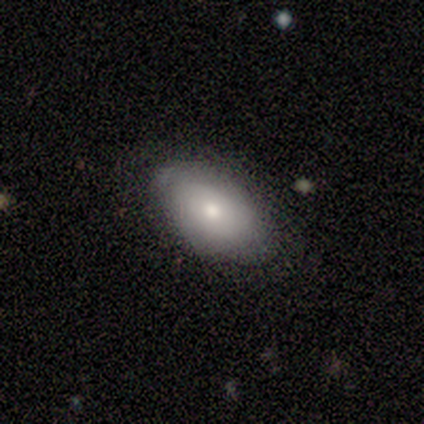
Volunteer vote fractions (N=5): Smooth or featured?
  - smooth: 80% *
  - featured or disk: 20%
  - star or artifact: 0%
How rounded?
  - in between: 100% *
  - round: 0%
  - cigar-shaped: 0%
Merging?
  - none: 80% *
  - minor disturbance: 20%
  - major disturbance: 0%
  - merger: 0%